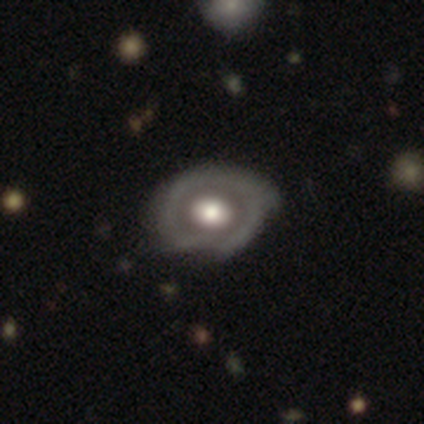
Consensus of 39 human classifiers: Smooth or featured? 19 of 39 (49%) said featured or disk. Edge-on disk? 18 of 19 (95%) said no. Bar? 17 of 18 (94%) said no. Spiral arms? 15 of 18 (83%) said no. Bulge size? 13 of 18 (72%) said large. Merging? 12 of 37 (32%) said none.